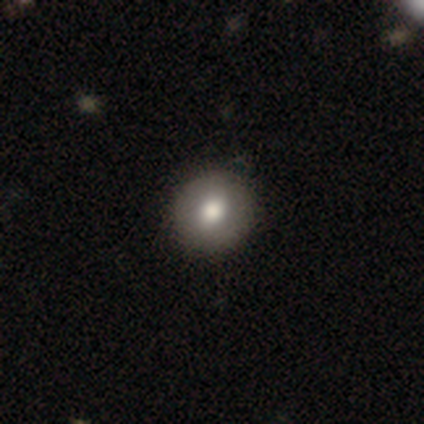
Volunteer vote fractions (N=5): smooth-or-featured: smooth: 60% | featured or disk: 40% | star or artifact: 0%
  how-rounded: round: 100% | in between: 0% | cigar-shaped: 0%
  merging: none: 100% | minor disturbance: 0% | major disturbance: 0% | merger: 0%